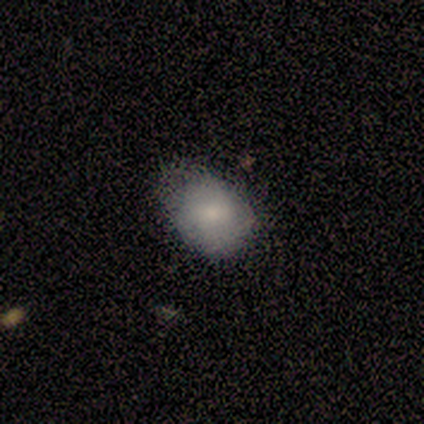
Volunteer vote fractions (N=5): smooth 80%, featured or disk 20%, star or artifact 0%. Down the decision tree: how rounded — in between (75%); merging — none (40%, tied with minor disturbance).